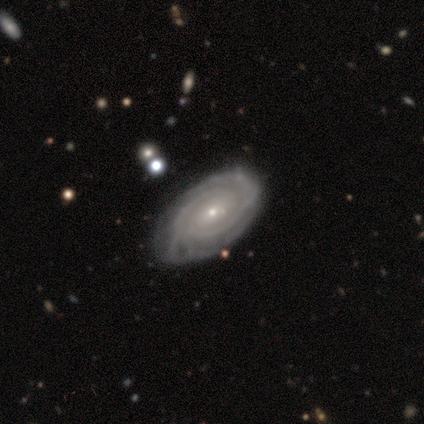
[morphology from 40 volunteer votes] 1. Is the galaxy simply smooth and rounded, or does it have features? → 88% featured or disk, 10% smooth, 2% star or artifact.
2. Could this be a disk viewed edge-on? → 97% no, 3% yes.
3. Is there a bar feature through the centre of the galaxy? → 74% no, 18% weak, 9% strong.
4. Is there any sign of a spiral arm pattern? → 100% yes, 0% no.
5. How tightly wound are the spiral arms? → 82% tight, 12% medium, 6% loose.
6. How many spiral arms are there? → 35% can't tell, 32% 2, 18% 3, 6% 4, 6% more than 4, 3% 1.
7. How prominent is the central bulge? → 82% small, 18% moderate, 0% dominant, 0% large, 0% none.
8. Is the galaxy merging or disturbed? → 69% none, 26% minor disturbance, 5% major disturbance, 0% merger.